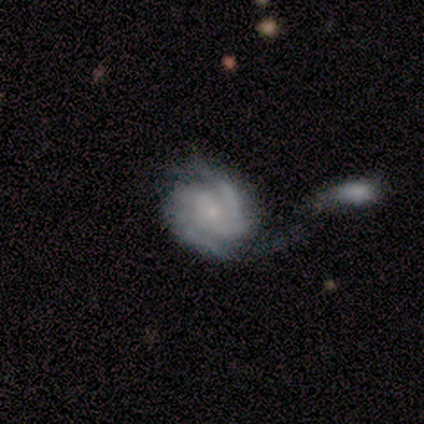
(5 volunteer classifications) smooth-or-featured: featured or disk: 100% | smooth: 0% | star or artifact: 0%
  disk-edge-on: no: 100% | yes: 0%
    bar: no: 80% | weak: 20% | strong: 0%
    has-spiral-arms: yes: 100% | no: 0%
      spiral-winding: tight: 40% (tied) | medium: 40% (tied) | loose: 20%
      spiral-arm-count: can't tell: 60% | 2: 40% | 1: 0% | 3: 0% | 4: 0% | more than 4: 0%
    bulge-size: moderate: 60% | small: 40% | dominant: 0% | large: 0% | none: 0%
  merging: minor disturbance: 40% | none: 20% | major disturbance: 20% | merger: 20%